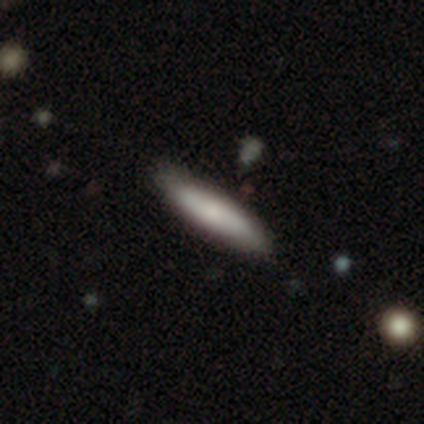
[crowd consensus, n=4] Q: Smooth or featured?
A: smooth (100%)
Q: How rounded?
A: in between (50%); runner-up: round (25%)
Q: Merging?
A: none (75%); runner-up: merger (25%)